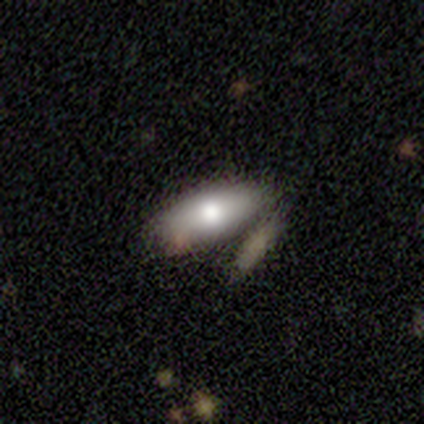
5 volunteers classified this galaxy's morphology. Q: Smooth or featured?
A: smooth (80%); runner-up: featured or disk (20%)
Q: How rounded?
A: in between (100%)
Q: Merging?
A: none (40%); runner-up: minor disturbance (20%)